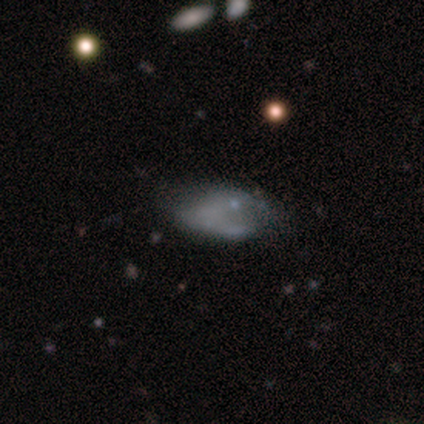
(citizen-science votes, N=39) smooth 59%, featured or disk 36%, star or artifact 5%. Down the decision tree: how rounded — in between (100%); merging — none (43%).